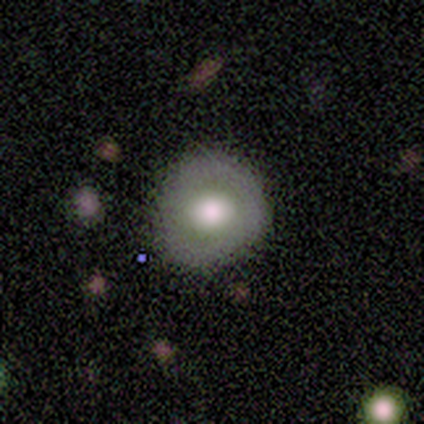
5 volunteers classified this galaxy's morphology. A smooth galaxy with no disk features (60%) that is round (67%). Merging: none (100%).